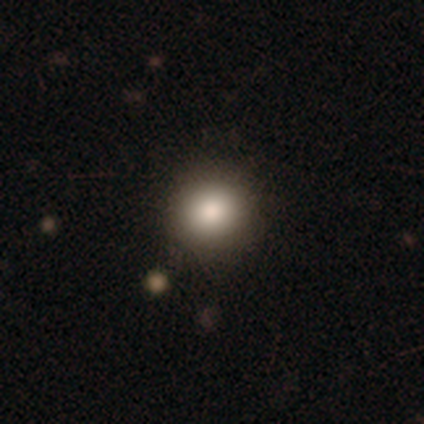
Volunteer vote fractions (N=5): This appears to be a smooth galaxy with no disk features (80%) that is round (75%). Merging: none (80%).